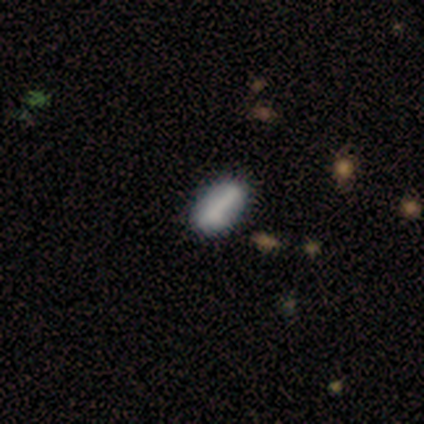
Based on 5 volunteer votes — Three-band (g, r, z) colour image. It shows a smooth galaxy with no disk features (80%) that is in between round and cigar-shaped (100%). Merging: none (80%).